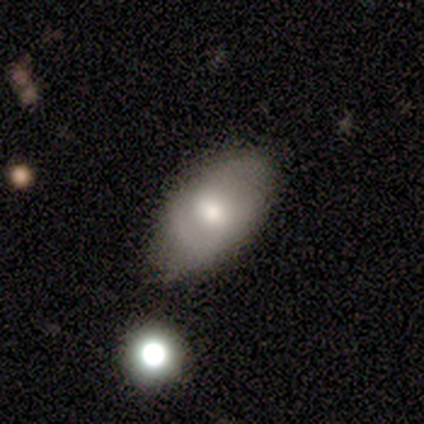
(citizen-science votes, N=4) Smooth or featured?
  - smooth: 75% *
  - featured or disk: 25%
  - star or artifact: 0%
How rounded?
  - in between: 67% *
  - round: 33%
  - cigar-shaped: 0%
Merging?
  - minor disturbance: 50% *
  - none: 25%
  - major disturbance: 25%
  - merger: 0%